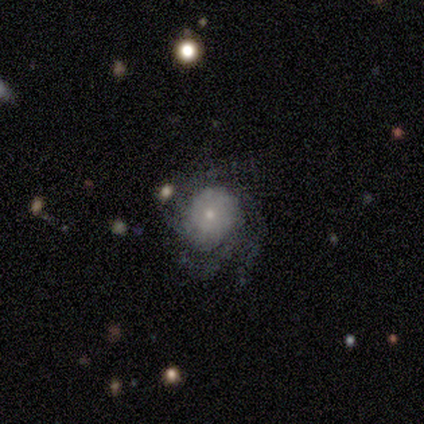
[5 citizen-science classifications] Smooth or featured? featured or disk (80%)
Edge-on disk? no (100%)
Bar? no (100%)
Spiral arms? yes (100%)
Spiral winding? medium (50%, tied with loose)
Spiral arm count? 3 (50%, tied with can't tell)
Bulge size? moderate (50%, tied with small)
Merging? none (60%)